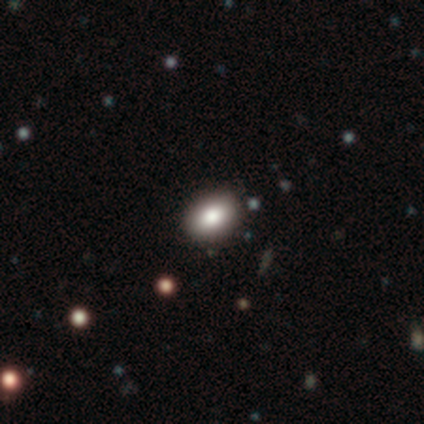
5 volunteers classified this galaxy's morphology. smooth-or-featured: smooth: 80% | featured or disk: 20% | star or artifact: 0%
  how-rounded: round: 50% (tied) | in between: 50% (tied) | cigar-shaped: 0%
  merging: none: 100% | minor disturbance: 0% | major disturbance: 0% | merger: 0%